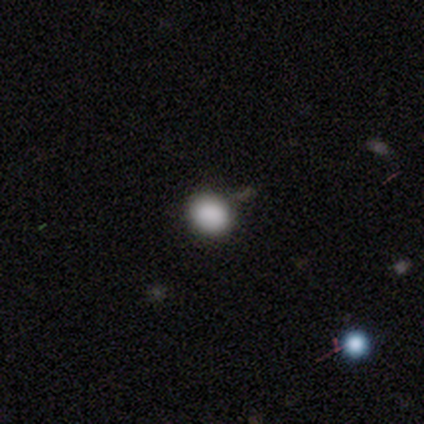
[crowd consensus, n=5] smooth_or_featured: smooth (p=1.00)
how_rounded: round (p=0.80) [alt: in between p=0.20]
merging: none (p=1.00)